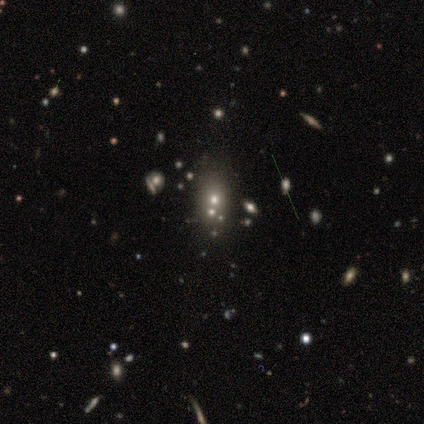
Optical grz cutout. It shows a featured or disk galaxy (40%, tied with star or artifact) with no bar (100%), no spiral arms (100%) and a small central bulge (50%, tied with none). Merging: merger (67%).